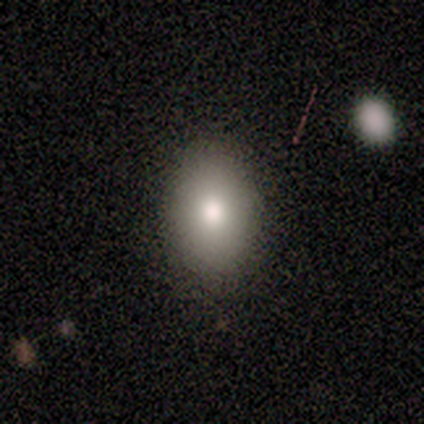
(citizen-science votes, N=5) Smooth or featured? 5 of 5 (100%) said smooth. How rounded? 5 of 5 (100%) said in between. Merging? 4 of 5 (80%) said none.